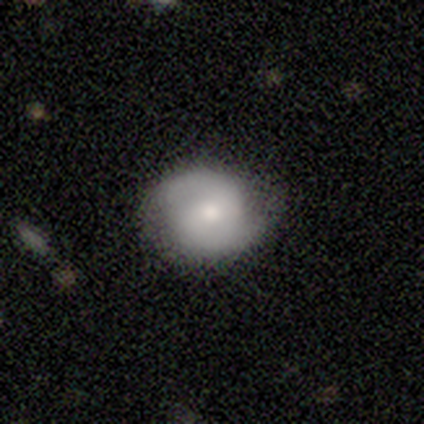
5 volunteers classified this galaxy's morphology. Volunteers were most divided on "bar" (3-way tie): strong: 33%, weak: 33%, no: 33%. More confident: edge-on disk — no (100%); spiral arms — yes (100%); spiral arm count — 2 (100%); bulge size — moderate (100%); merging — none (100%); spiral winding — tight (67%); smooth or featured — featured or disk (60%).